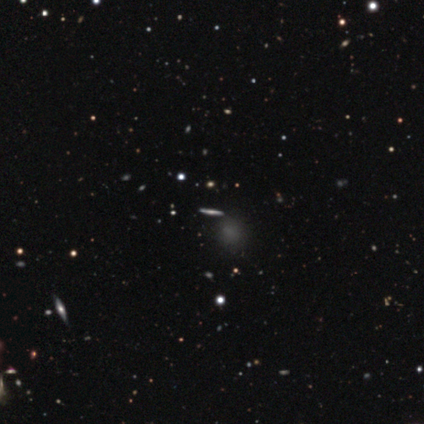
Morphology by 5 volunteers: A featured or disk galaxy (80%) viewed edge-on (100%) with a rounded central bulge (75%). Merging: none (100%).